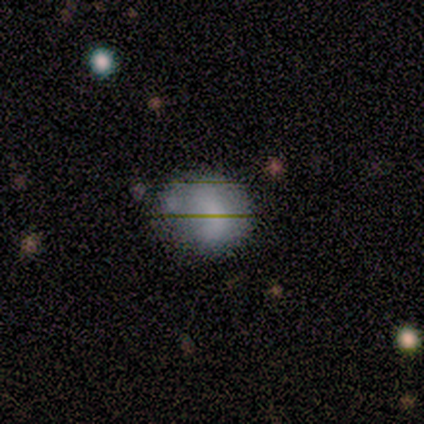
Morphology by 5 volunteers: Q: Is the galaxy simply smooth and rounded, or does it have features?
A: smooth — 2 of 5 (40%, tied with star or artifact).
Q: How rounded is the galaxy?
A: round — 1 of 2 (50%, tied with in between).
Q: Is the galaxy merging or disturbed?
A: minor disturbance — 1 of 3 (33%, tied with major disturbance and merger).